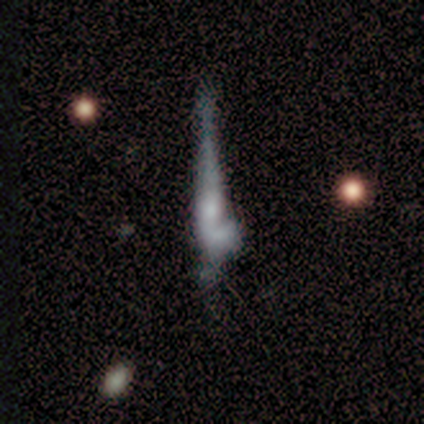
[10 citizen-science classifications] Morphology: type=featured or disk (50%); edge-on=yes (60%); edge-on bulge=rounded (100%); merging=none (50%).